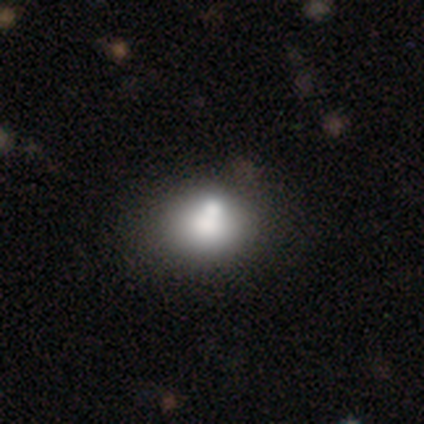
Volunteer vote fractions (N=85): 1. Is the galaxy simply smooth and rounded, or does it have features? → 71% smooth, 18% star or artifact, 12% featured or disk.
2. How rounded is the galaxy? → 57% in between, 43% round, 0% cigar-shaped.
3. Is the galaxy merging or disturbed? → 51% none, 23% minor disturbance, 21% merger, 4% major disturbance.